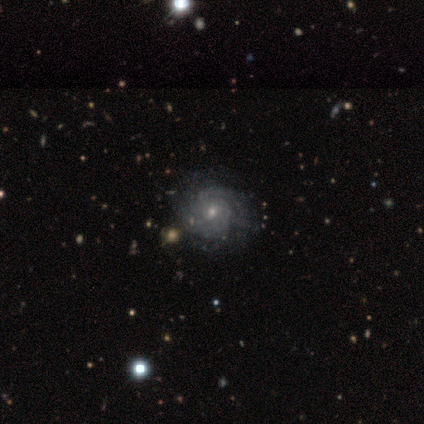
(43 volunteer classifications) This appears to be a featured or disk galaxy (86%) with no bar (86%), tight (86%) spiral arms (100%) and a small central bulge (65%). Merging: none (45%).